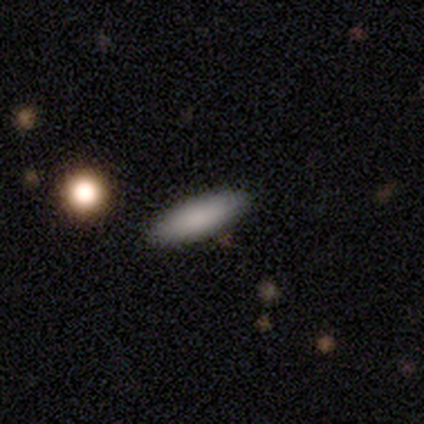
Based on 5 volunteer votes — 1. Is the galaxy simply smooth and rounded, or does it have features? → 80% smooth, 20% featured or disk, 0% star or artifact.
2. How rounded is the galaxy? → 75% cigar-shaped, 25% in between, 0% round.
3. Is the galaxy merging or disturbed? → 100% none, 0% minor disturbance, 0% major disturbance, 0% merger.